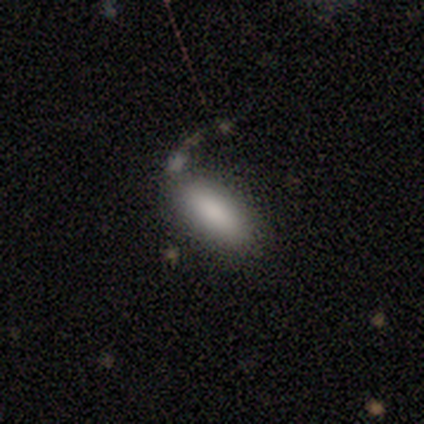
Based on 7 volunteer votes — Smooth or featured? smooth (71%)
How rounded? in between (80%)
Merging? none (83%)